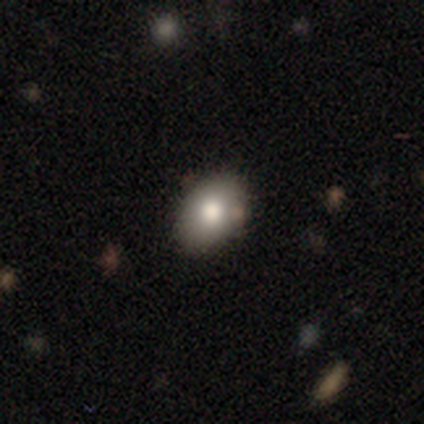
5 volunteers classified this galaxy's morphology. A smooth galaxy with no disk features (60%) that is in between round and cigar-shaped (100%).

Vote fractions:
- Smooth or featured? smooth: 60% / featured or disk: 40% / star or artifact: 0%
- How rounded? in between: 100% / round: 0% / cigar-shaped: 0%
- Merging? none: 80% / minor disturbance: 20% / major disturbance: 0% / merger: 0%